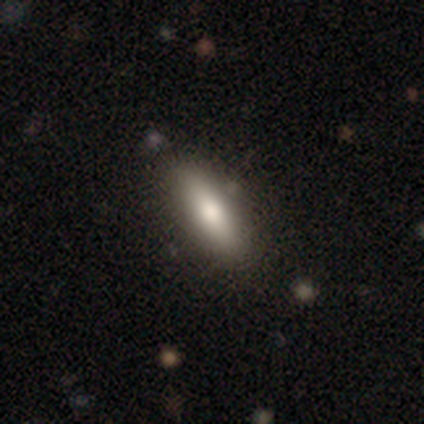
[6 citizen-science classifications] Q: Smooth or featured?
A: smooth (100%)
Q: How rounded?
A: in between (50%); tied with: cigar-shaped (50%)
Q: Merging?
A: none (100%)